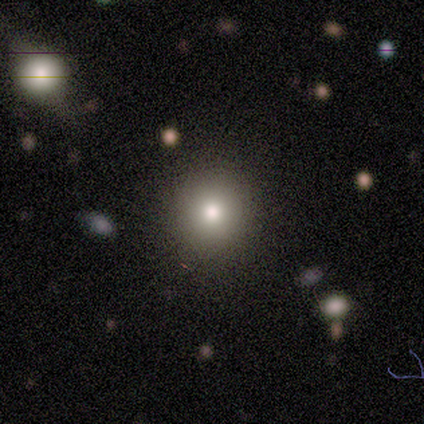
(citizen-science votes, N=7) A smooth galaxy with no disk features (100%) that is round (86%). Merging: none (86%).